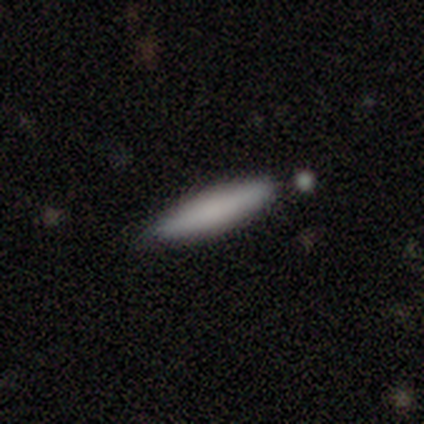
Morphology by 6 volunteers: smooth_or_featured: smooth (p=1.00)
how_rounded: cigar-shaped (p=1.00)
merging: none (p=0.83) [alt: minor disturbance p=0.17]